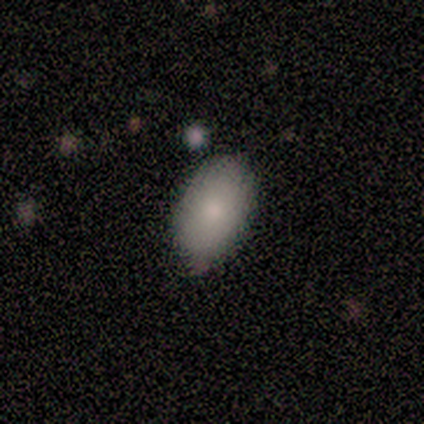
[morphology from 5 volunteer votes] Smooth or featured: smooth — 100%
How rounded: in between — 100%
Merging: none — 60% (minor disturbance — 40%)